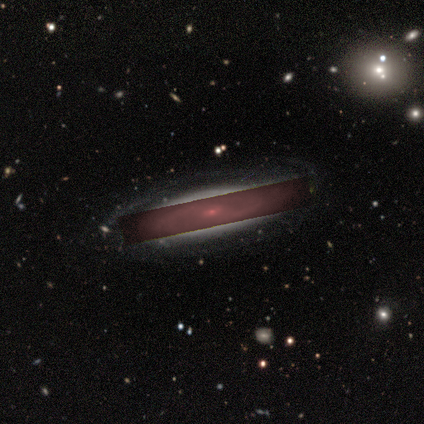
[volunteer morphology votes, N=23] featured or disk 74%, star or artifact 26%, smooth 0%. Down the decision tree: edge-on disk — no (88%); bar — weak (60%); spiral arms — yes (87%); spiral arm count — 2 (77%); spiral winding — medium (46%); bulge size — small (87%); merging — none (76%).